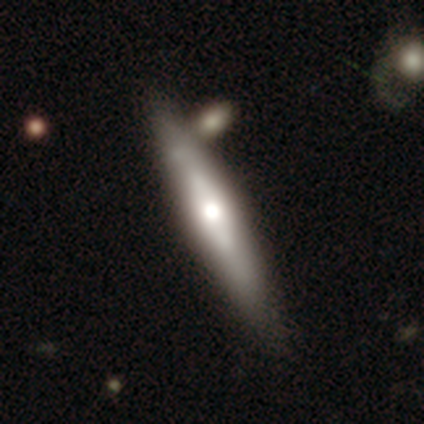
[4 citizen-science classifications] A smooth galaxy with no disk features (50%, tied with featured or disk) that is cigar-shaped (100%). Merging: none (50%, tied with merger).